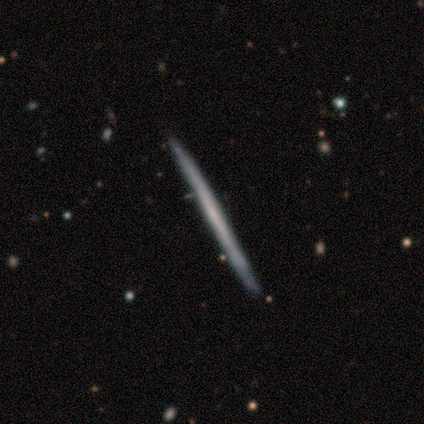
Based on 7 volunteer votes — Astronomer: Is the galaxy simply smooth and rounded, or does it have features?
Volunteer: featured or disk — 71%.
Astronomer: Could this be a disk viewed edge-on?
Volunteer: yes — 80%.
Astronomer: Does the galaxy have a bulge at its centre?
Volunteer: none — 100%.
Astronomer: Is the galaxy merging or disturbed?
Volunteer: none — 100%.